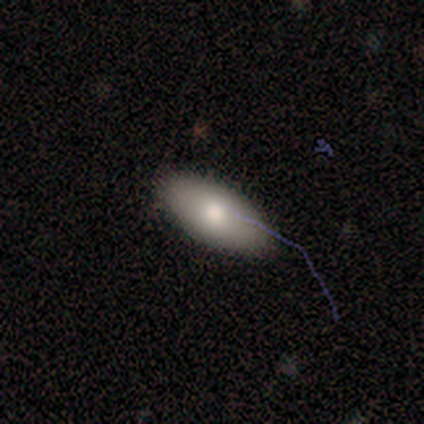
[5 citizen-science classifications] This appears to be a smooth galaxy with no disk features (80%) that is in between round and cigar-shaped (75%). Merging: none (100%).